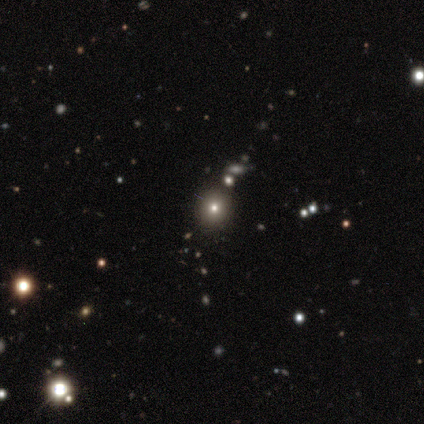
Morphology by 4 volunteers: smooth_or_featured: smooth (p=0.50) [tied with: star or artifact p=0.50]
how_rounded: round (p=1.00)
merging: minor disturbance (p=1.00)